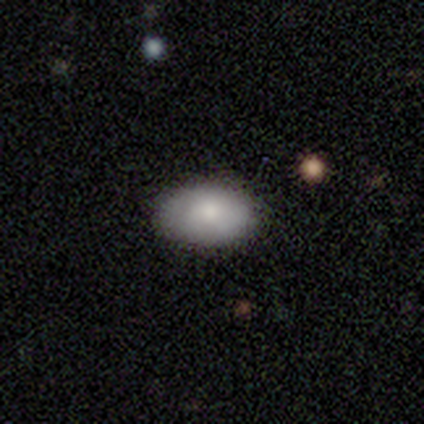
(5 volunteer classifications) Smooth or featured?
  - smooth: 60% *
  - featured or disk: 20%
  - star or artifact: 20%
How rounded?
  - in between: 100% *
  - round: 0%
  - cigar-shaped: 0%
Merging?
  - none: 75% *
  - minor disturbance: 25%
  - major disturbance: 0%
  - merger: 0%